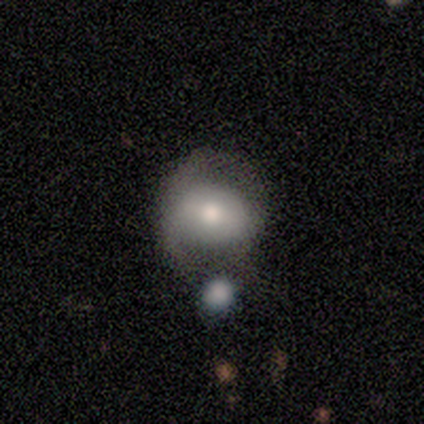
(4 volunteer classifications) A smooth galaxy with no disk features (100%) that is round (50%, tied with in between).

Vote fractions:
- Smooth or featured? smooth: 100% / featured or disk: 0% / star or artifact: 0%
- How rounded? round: 50% (tied) / in between: 50% (tied) / cigar-shaped: 0%
- Merging? minor disturbance: 50% / none: 25% / merger: 25% / major disturbance: 0%